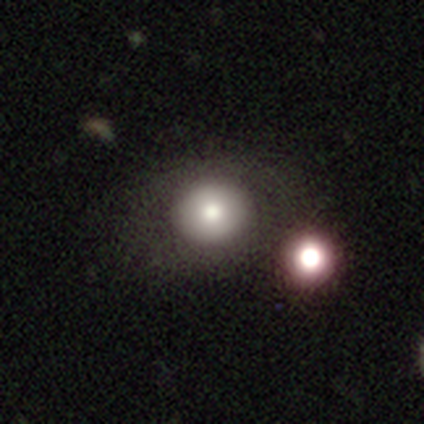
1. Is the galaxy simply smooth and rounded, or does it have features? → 75% smooth, 25% featured or disk, 0% star or artifact.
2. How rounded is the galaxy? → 100% round, 0% in between, 0% cigar-shaped.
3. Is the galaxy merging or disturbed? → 75% none, 25% merger, 0% minor disturbance, 0% major disturbance.